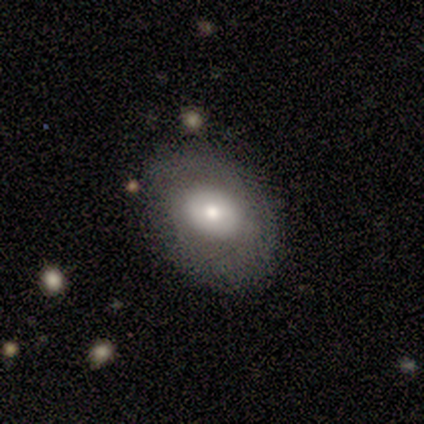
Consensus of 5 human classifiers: Overall: smooth (60%; featured or disk 40%). How rounded: round (33%, tied with in between and cigar-shaped). Merging: none (80%).